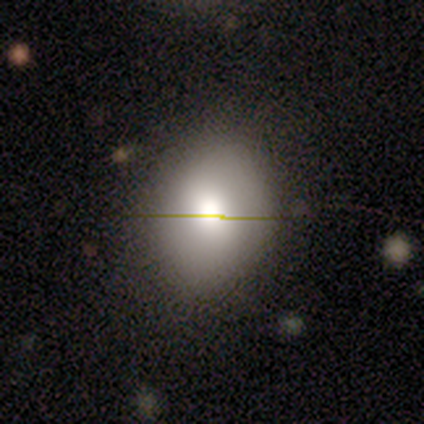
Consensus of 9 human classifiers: A smooth galaxy with no disk features (78%) that is round (86%). Merging: none (100%).